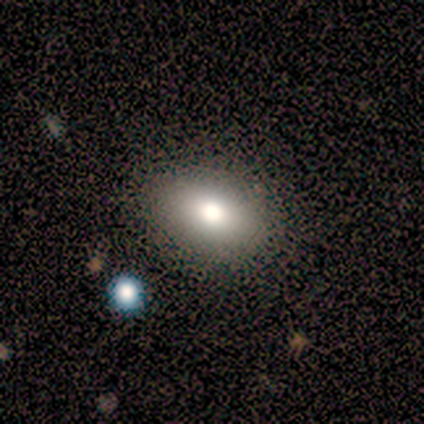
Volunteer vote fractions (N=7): smooth 43%, featured or disk 29%, star or artifact 29%. Down the decision tree: how rounded — in between (67%); merging — none (100%).